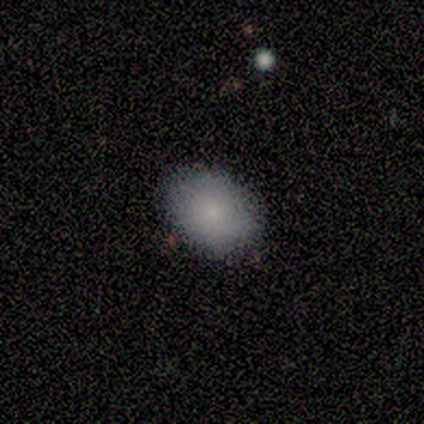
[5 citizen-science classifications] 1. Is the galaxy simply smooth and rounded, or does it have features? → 80% smooth, 20% featured or disk, 0% star or artifact.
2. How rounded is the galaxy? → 75% round, 25% in between, 0% cigar-shaped.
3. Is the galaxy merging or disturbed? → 80% none, 20% minor disturbance, 0% major disturbance, 0% merger.